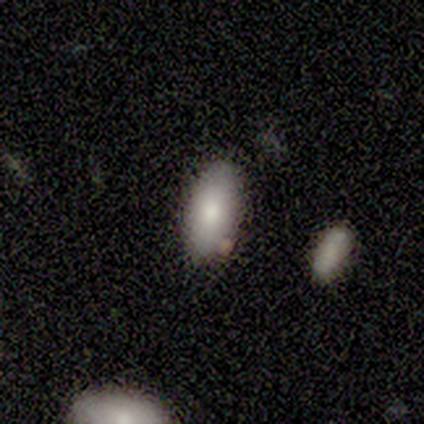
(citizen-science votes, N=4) This is likely a smooth galaxy (75%). How rounded: clearly in between (100%). Merging: clearly none (100%).